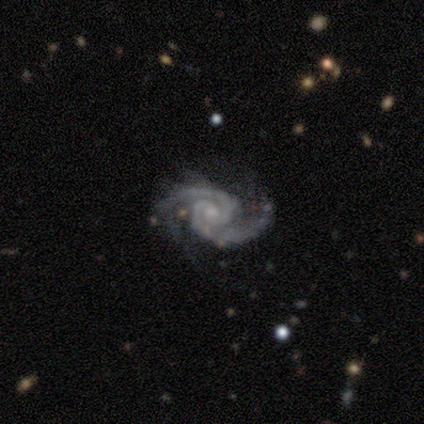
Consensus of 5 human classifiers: This is clearly a featured or disk galaxy (100%). It is clearly not viewed edge-on (100%). Bar: clearly no (80%). Spiral arm pattern: clearly yes (100%). Spiral arm count: clearly 2 (100%). Spiral winding: clearly medium (100%). Central bulge: clearly small (80%). Merging: likely none (60%).